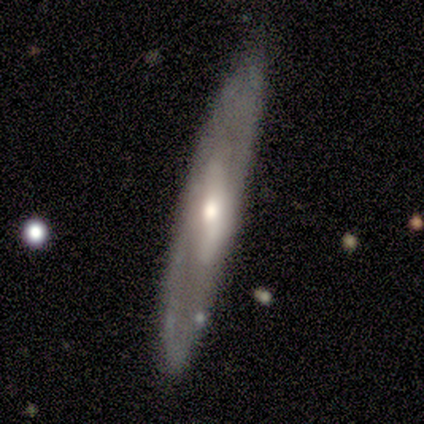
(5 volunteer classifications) Overall: featured or disk (100%). Edge-on disk: no (60%; yes 40%). Bar: strong (33%, tied with weak and no). Spiral arms: yes (67%; no 33%). Spiral arm count: 2 (50%, tied with can't tell). Spiral winding: loose (100%). Bulge size: small (100%). Merging: none (100%).